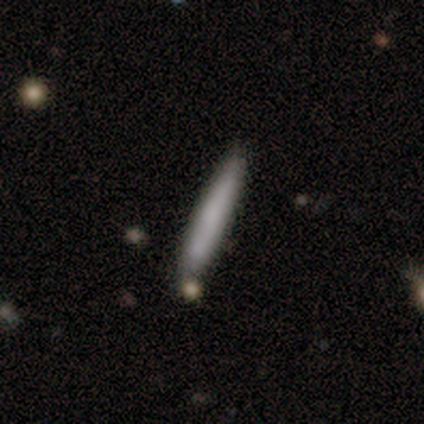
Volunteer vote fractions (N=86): smooth_or_featured: smooth (p=0.73) [alt: featured or disk p=0.23]
how_rounded: cigar-shaped (p=0.98) [alt: round p=0.02]
merging: none (p=0.78) [alt: minor disturbance p=0.13]